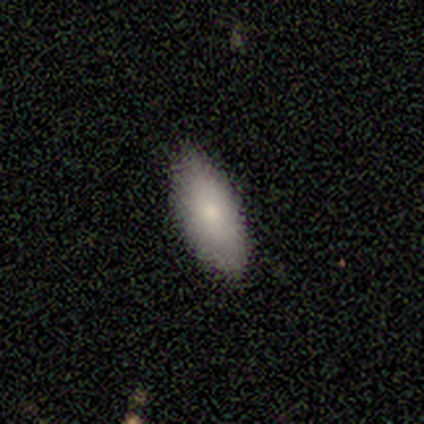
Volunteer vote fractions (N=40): Smooth or featured? smooth (85%)
How rounded? in between (91%)
Merging? none (85%)